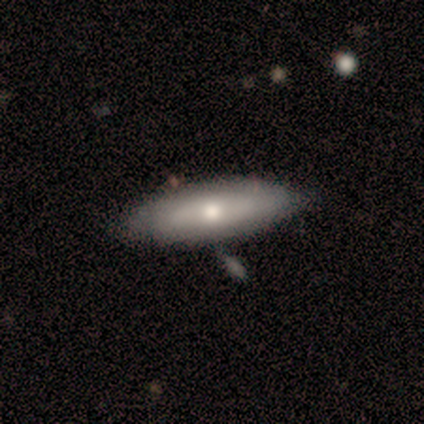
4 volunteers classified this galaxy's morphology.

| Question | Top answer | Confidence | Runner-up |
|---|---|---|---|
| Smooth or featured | smooth | 75% | featured or disk (25%) |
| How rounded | cigar-shaped | 67% | in between (33%) |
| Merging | none | 100% | — |